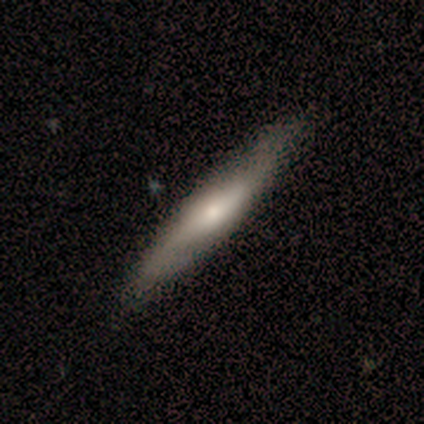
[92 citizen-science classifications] Volunteers were most divided on "smooth or featured": smooth: 51%, featured or disk: 48%, star or artifact: 1%. More confident: how rounded — cigar-shaped (85%); merging — none (85%).